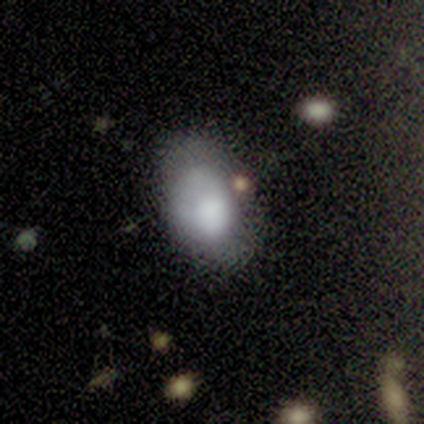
smooth-or-featured: smooth: 100% | featured or disk: 0% | star or artifact: 0%
  how-rounded: in between: 75% | round: 25% | cigar-shaped: 0%
  merging: minor disturbance: 50% | none: 25% | major disturbance: 25% | merger: 0%